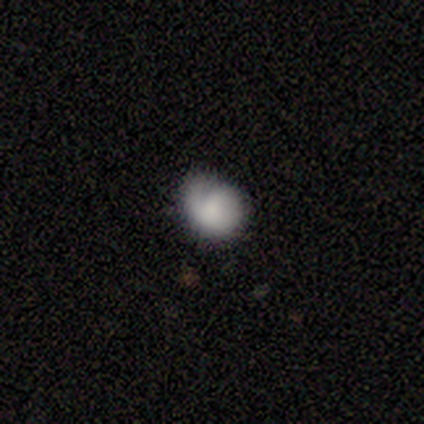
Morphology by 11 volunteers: smooth 45% (tied), featured or disk 45% (tied), star or artifact 9%. Down the decision tree: how rounded — round (60%); merging — none (80%).